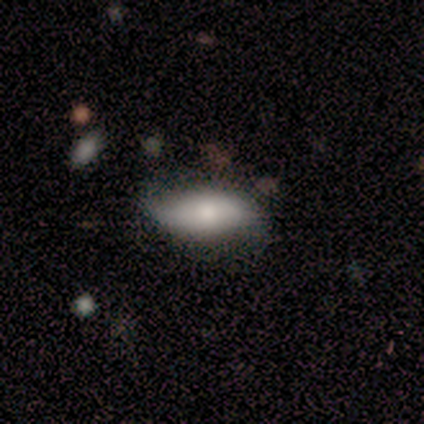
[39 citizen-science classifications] Smooth or featured: smooth — 62% (featured or disk — 28%)
How rounded: in between — 79% (cigar-shaped — 17%)
Merging: none — 63% (minor disturbance — 29%)